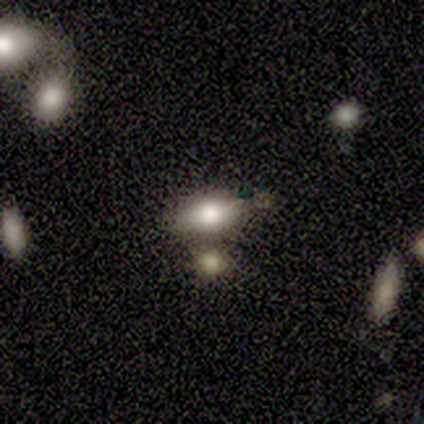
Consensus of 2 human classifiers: Volunteers were most divided on "merging" (2-way tie): none: 50%, minor disturbance: 50%, major disturbance: 0%, merger: 0%. More confident: smooth or featured — smooth (100%); how rounded — in between (100%).